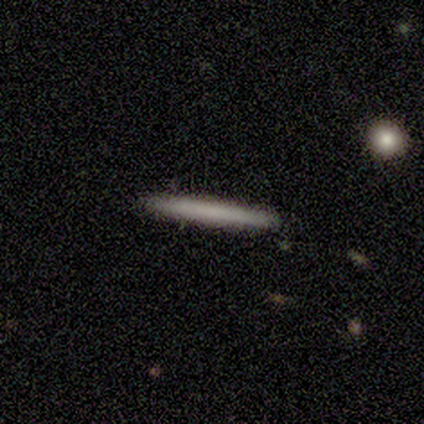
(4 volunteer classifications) A smooth galaxy with no disk features (50%, tied with featured or disk) that is cigar-shaped (100%). Merging: none (100%).